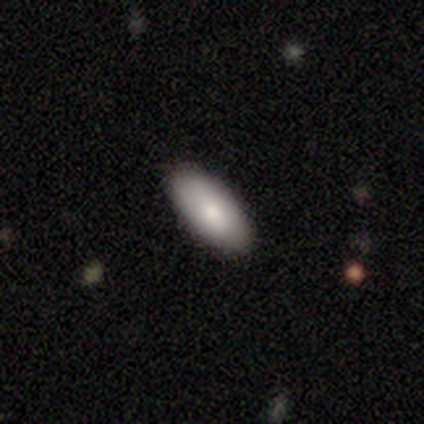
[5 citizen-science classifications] This appears to be a smooth galaxy with no disk features (60%) that is in between round and cigar-shaped (100%). Merging: none (80%).